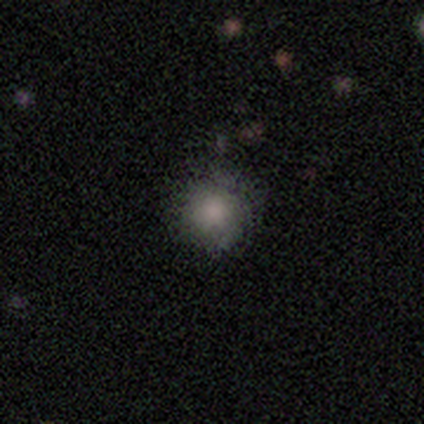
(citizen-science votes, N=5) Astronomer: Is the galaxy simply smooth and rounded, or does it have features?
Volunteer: smooth — 80%.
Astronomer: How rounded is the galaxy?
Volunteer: round — 100%.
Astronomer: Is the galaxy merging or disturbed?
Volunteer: none — 75%.